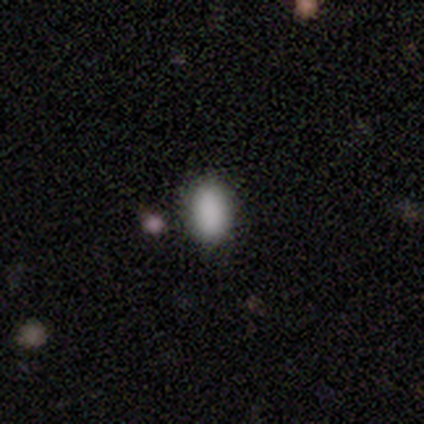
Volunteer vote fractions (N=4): Smooth or featured?
  - smooth: 100% *
  - featured or disk: 0%
  - star or artifact: 0%
How rounded?
  - in between: 100% *
  - round: 0%
  - cigar-shaped: 0%
Merging?
  - none: 100% *
  - minor disturbance: 0%
  - major disturbance: 0%
  - merger: 0%